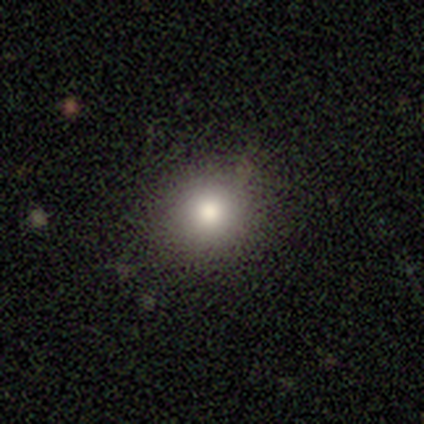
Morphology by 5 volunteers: Q: Smooth or featured?
A: smooth (100%)
Q: How rounded?
A: round (80%); runner-up: in between (20%)
Q: Merging?
A: none (60%); runner-up: minor disturbance (40%)